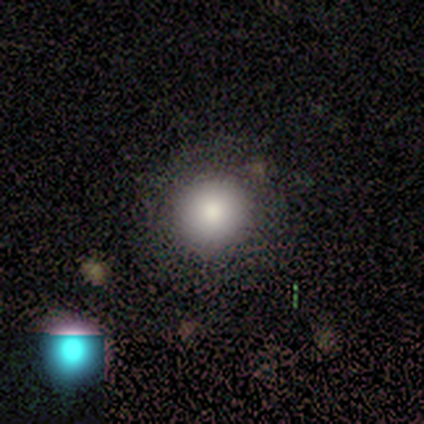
Overall: smooth (73%). How rounded: round (100%). Merging: none (70%; minor disturbance 30%).